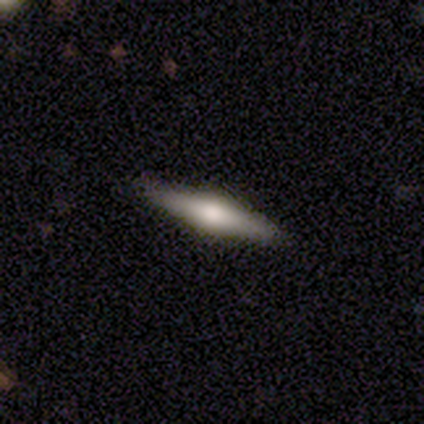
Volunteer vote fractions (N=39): smooth-or-featured: featured or disk: 69% | smooth: 26% | star or artifact: 5%
  disk-edge-on: yes: 100% | no: 0%
    edge-on-bulge: rounded: 85% | boxy: 15% | none: 0%
  merging: none: 89% | minor disturbance: 8% | major disturbance: 3% | merger: 0%